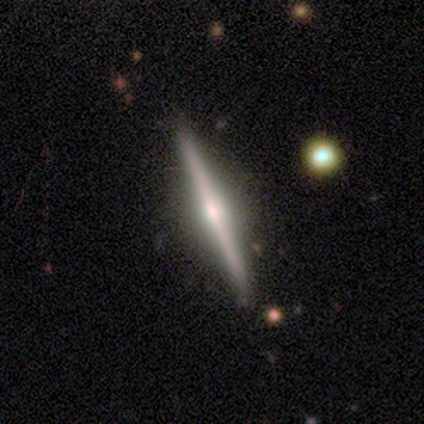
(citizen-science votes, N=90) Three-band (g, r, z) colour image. It shows a featured or disk galaxy (77%) viewed edge-on (100%) with a rounded central bulge (84%). Merging: none (87%).